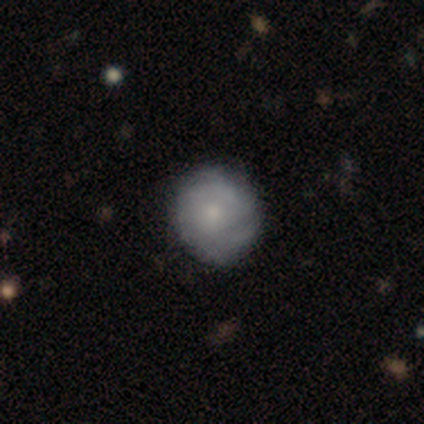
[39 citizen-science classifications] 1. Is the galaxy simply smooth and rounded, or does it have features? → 51% featured or disk, 49% smooth, 0% star or artifact.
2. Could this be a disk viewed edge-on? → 100% no, 0% yes.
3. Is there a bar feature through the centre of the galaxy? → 90% no, 10% weak, 0% strong.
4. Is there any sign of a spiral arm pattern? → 70% yes, 30% no.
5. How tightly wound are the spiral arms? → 71% tight, 21% medium, 7% loose.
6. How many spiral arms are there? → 64% can't tell, 14% 2, 7% 1, 7% 3, 7% more than 4, 0% 4.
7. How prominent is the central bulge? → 55% small, 35% moderate, 10% none, 0% dominant, 0% large.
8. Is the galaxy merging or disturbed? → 49% none, 10% minor disturbance, 5% major disturbance, 0% merger.